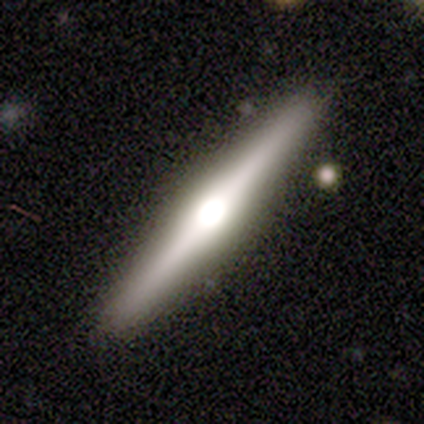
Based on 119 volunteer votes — A featured or disk galaxy (80%) viewed edge-on (98%) with a rounded central bulge (82%).

Vote fractions:
- Smooth or featured? featured or disk: 80% / smooth: 16% / star or artifact: 4%
- Edge-on disk? yes: 98% / no: 2%
- Edge-on bulge? rounded: 82% / boxy: 17% / none: 1%
- Merging? none: 89% / minor disturbance: 7% / major disturbance: 3% / merger: 2%